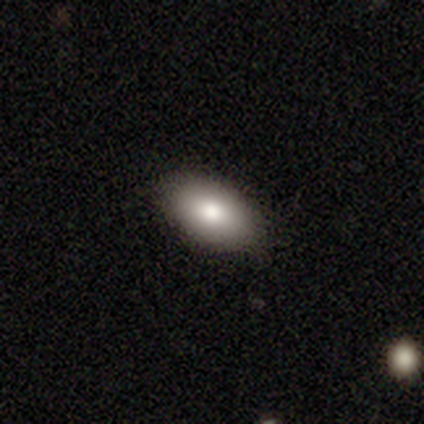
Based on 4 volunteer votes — A smooth galaxy with no disk features (100%) that is in between round and cigar-shaped (100%).

Vote fractions:
- Smooth or featured? smooth: 100% / featured or disk: 0% / star or artifact: 0%
- How rounded? in between: 100% / round: 0% / cigar-shaped: 0%
- Merging? none: 100% / minor disturbance: 0% / major disturbance: 0% / merger: 0%